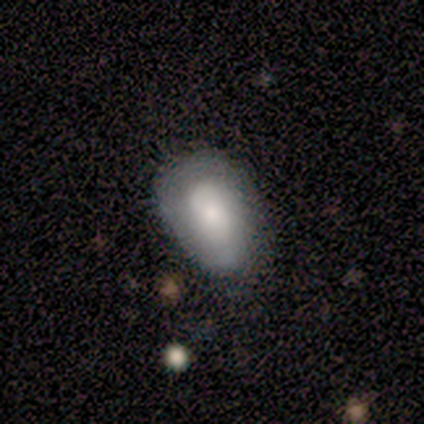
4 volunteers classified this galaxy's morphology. smooth_or_featured: featured or disk (p=1.00)
disk_edge_on: no (p=1.00)
bar: no (p=0.75) [alt: weak p=0.25]
has_spiral_arms: yes (p=0.50) [tied with: no p=0.50]
spiral_winding: tight (p=1.00)
spiral_arm_count: 2 (p=0.50) [tied with: can't tell p=0.50]
bulge_size: large (p=0.50) [tied with: small p=0.50]
merging: minor disturbance (p=0.75) [alt: none p=0.25]